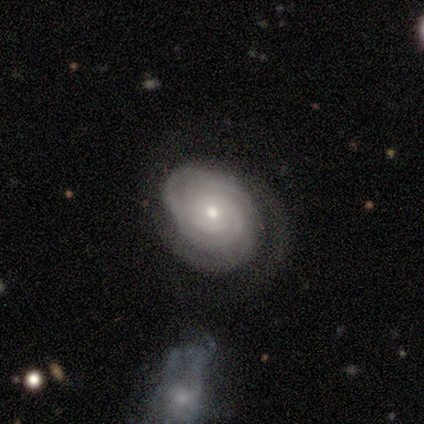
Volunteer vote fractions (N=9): Smooth or featured? 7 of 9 (78%) said featured or disk. Edge-on disk? 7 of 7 (100%) said no. Bar? 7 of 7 (100%) said no. Spiral arms? 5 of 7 (71%) said yes. Spiral winding? 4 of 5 (80%) said tight. Spiral arm count? 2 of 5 (40%) said 2. Bulge size? 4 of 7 (57%) said small. Merging? 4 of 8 (50%) said none.